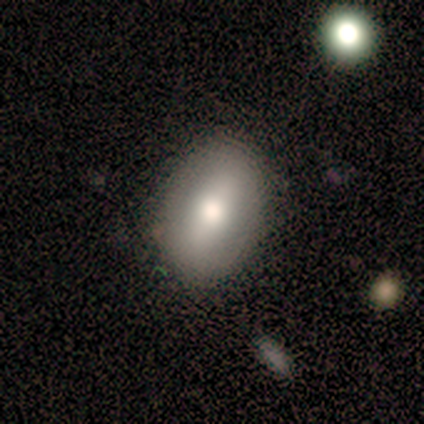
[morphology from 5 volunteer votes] A smooth galaxy with no disk features (60%) that is in between round and cigar-shaped (100%). Merging: none (80%).